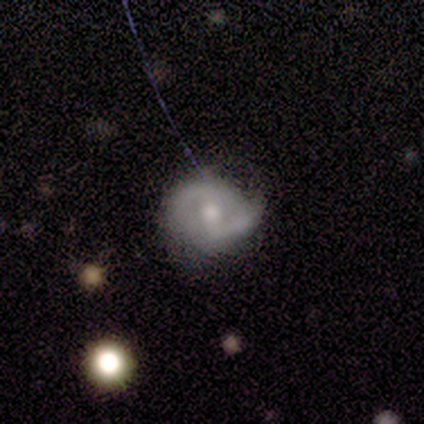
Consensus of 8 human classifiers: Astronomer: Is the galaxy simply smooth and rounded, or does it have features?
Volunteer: featured or disk — 88%.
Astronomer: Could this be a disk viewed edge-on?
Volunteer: no — 100%.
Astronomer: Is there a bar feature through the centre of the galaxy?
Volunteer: weak — 71%.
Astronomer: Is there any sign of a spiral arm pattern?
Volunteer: yes — 100%.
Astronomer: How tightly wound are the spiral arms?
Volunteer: tight — 43% (runner-up: medium, 29%).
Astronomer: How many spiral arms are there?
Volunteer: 2 — 100%.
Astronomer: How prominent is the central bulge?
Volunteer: moderate — 57%.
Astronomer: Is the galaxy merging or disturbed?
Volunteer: none — 88%.